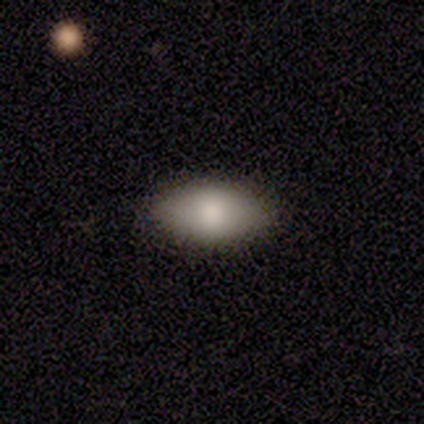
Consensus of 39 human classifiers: Morphology: type=smooth (90%); roundness=in between (91%); merging=none (72%).